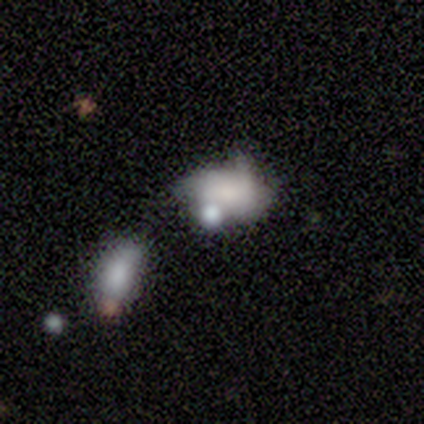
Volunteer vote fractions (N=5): Q: Smooth or featured?
A: smooth (60%); runner-up: featured or disk (20%)
Q: How rounded?
A: in between (100%)
Q: Merging?
A: none (50%); runner-up: major disturbance (25%)